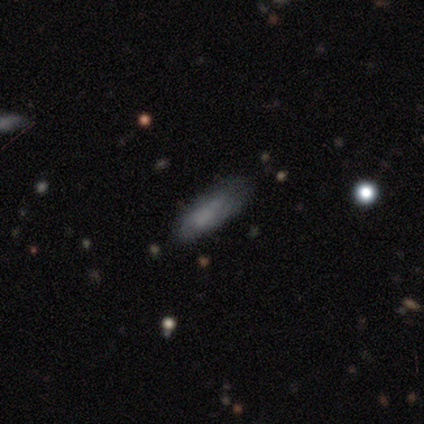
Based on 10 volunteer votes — Overall: smooth (50%; featured or disk 40%). How rounded: in between (80%). Merging: none (67%; minor disturbance 33%).